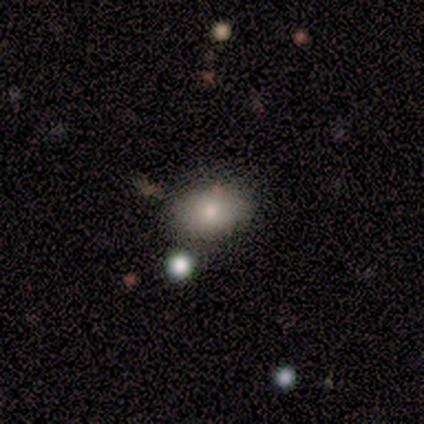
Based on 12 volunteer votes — A smooth galaxy with no disk features (100%) that is in between round and cigar-shaped (100%). Merging: none (75%).